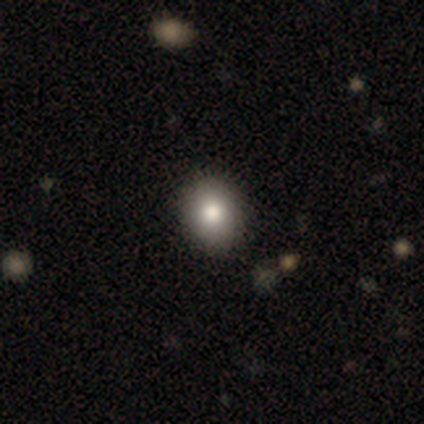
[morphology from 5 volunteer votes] smooth_or_featured: smooth (p=0.80) [alt: star or artifact p=0.20]
how_rounded: round (p=0.75) [alt: in between p=0.25]
merging: none (p=1.00)